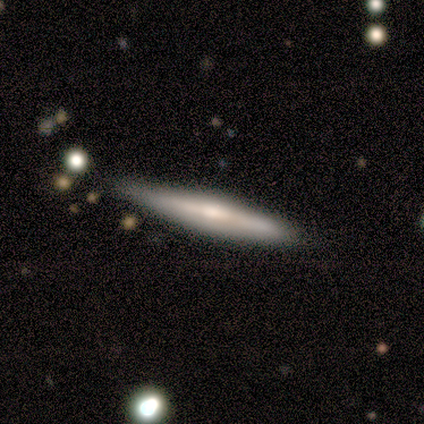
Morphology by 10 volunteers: type=featured or disk (60%); edge-on=yes (100%); edge-on bulge=rounded (50%); merging=none (80%).